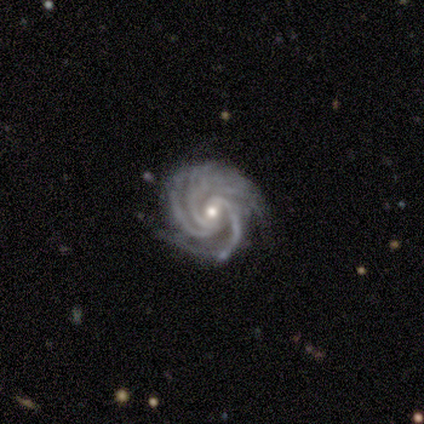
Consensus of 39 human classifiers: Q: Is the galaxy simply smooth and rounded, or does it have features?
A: featured or disk — 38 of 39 (97%).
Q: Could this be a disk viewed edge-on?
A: no — 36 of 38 (95%).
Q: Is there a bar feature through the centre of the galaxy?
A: no — 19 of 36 (53%).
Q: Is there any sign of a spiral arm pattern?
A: yes — 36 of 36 (100%).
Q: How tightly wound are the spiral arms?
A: tight — 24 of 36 (67%).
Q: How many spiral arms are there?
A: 3 — 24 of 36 (67%).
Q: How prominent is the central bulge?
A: moderate — 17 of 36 (47%, tied with small).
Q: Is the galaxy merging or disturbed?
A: none — 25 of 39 (64%).